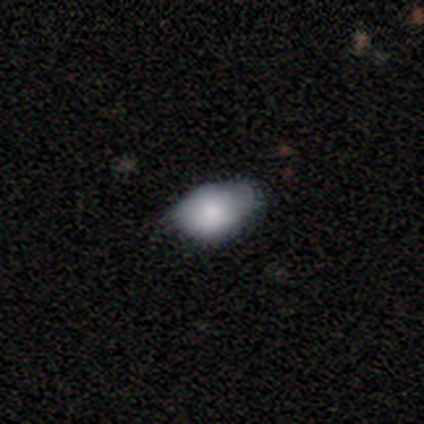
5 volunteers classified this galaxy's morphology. Smooth or featured?
  - smooth: 60% *
  - featured or disk: 20%
  - star or artifact: 20%
How rounded?
  - in between: 67% *
  - round: 33%
  - cigar-shaped: 0%
Merging?
  - none: 75% *
  - minor disturbance: 25%
  - major disturbance: 0%
  - merger: 0%